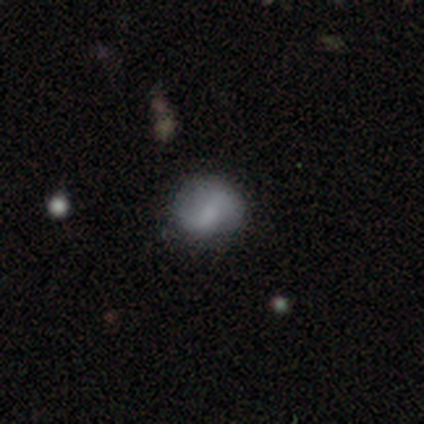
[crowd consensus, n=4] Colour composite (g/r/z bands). It shows a smooth galaxy with no disk features (50%, tied with featured or disk) that is round (50%, tied with in between). Merging: none (75%).